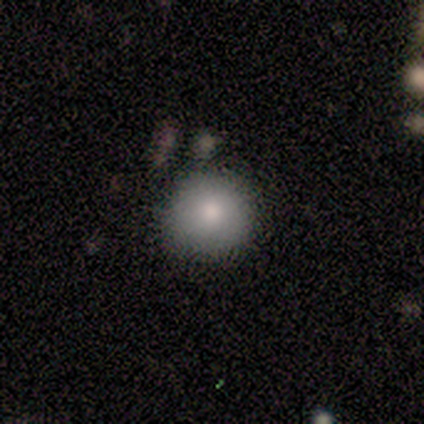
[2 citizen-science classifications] Volunteers were most divided on "smooth or featured" (2-way tie): smooth: 50%, star or artifact: 50%, featured or disk: 0%. More confident: how rounded — round (100%); merging — none (100%).